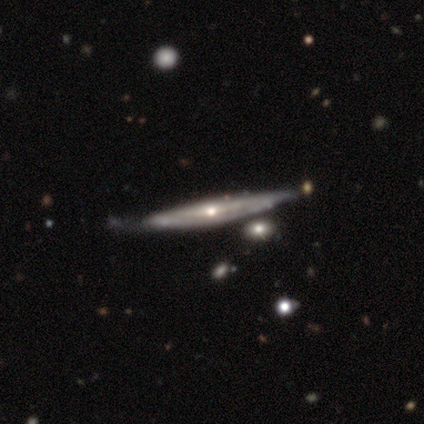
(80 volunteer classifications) A featured or disk galaxy (81%) viewed edge-on (85%) with a rounded central bulge (67%).

Vote fractions:
- Smooth or featured? featured or disk: 81% / smooth: 18% / star or artifact: 1%
- Edge-on disk? yes: 85% / no: 15%
- Edge-on bulge? rounded: 67% / none: 33% / boxy: 0%
- Merging? none: 30% / minor disturbance: 19% / merger: 8% / major disturbance: 1%